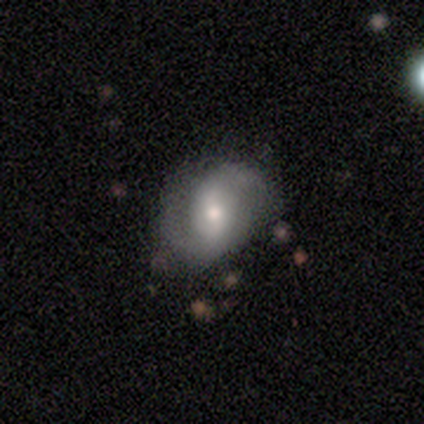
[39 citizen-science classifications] This appears to be a featured or disk galaxy (74%) with a weak bar (50%), 2 (93%) medium (50%) spiral arms (100%) and a moderate central bulge (54%). Merging: none (69%).